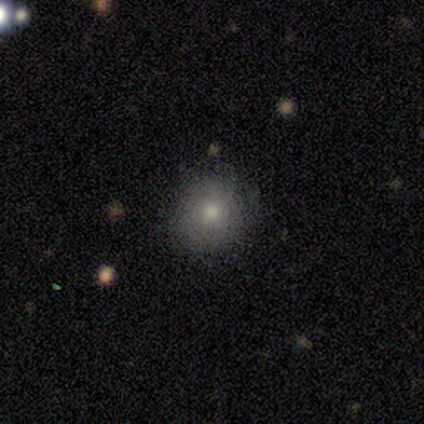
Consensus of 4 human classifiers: Morphology: type=smooth (50%, tied with star or artifact); roundness=round (100%); merging=none (100%).